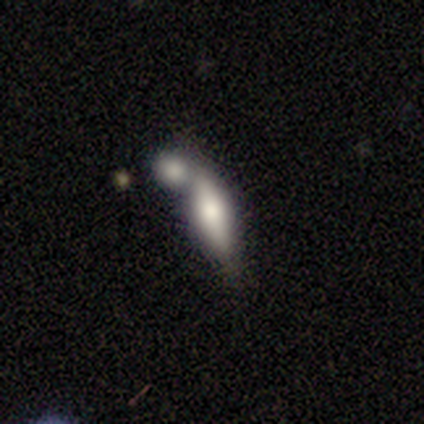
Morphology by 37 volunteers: smooth 62%, featured or disk 27%, star or artifact 11%. Down the decision tree: how rounded — in between (74%); merging — merger (76%).